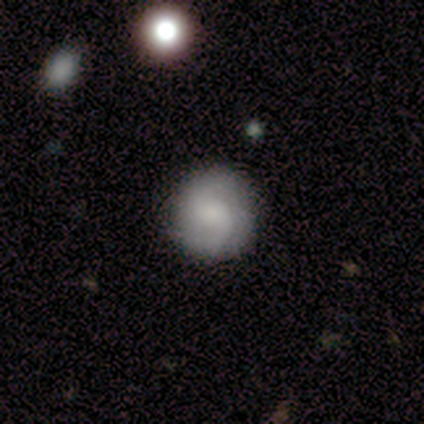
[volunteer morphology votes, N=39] smooth-or-featured: featured or disk: 54% | smooth: 41% | star or artifact: 5%
  disk-edge-on: no: 95% | yes: 5%
    bar: no: 50% | weak: 45% | strong: 5%
    has-spiral-arms: yes: 90% | no: 10%
      spiral-winding: medium: 39% | tight: 33% | loose: 28%
      spiral-arm-count: 2: 61% | 1: 11% | 3: 11% | can't tell: 11% | 4: 6% | more than 4: 0%
    bulge-size: large: 30% | moderate: 25% | small: 20% | none: 20% | dominant: 5%
  merging: none: 81% | minor disturbance: 14% | major disturbance: 3% | merger: 3%